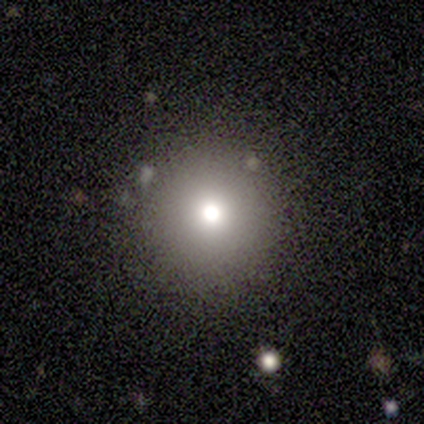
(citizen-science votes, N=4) smooth_or_featured: smooth (p=0.50) [alt: featured or disk p=0.25]
how_rounded: round (p=1.00)
merging: none (p=1.00)